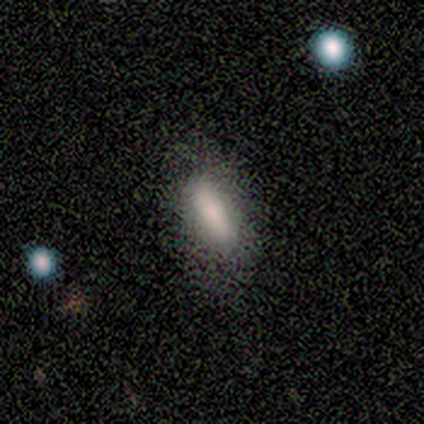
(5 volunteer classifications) Morphology: type=smooth (60%); roundness=in between (67%); merging=none (75%).